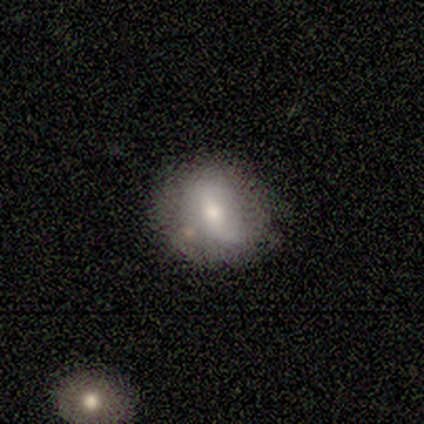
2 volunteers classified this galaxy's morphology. Overall: smooth (50%, tied with featured or disk). How rounded: round (100%). Merging: none (50%, tied with minor disturbance).